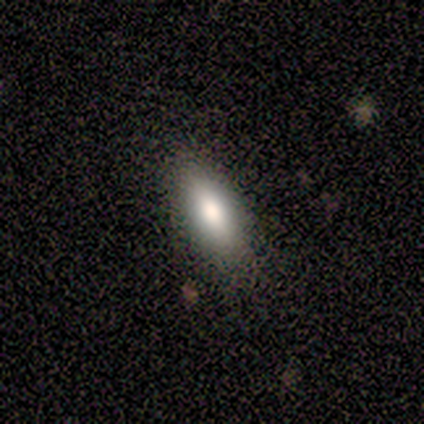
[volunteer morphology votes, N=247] Smooth or featured? smooth (77%)
How rounded? in between (64%)
Merging? none (83%)